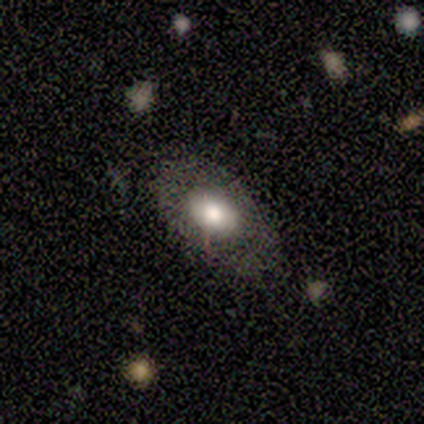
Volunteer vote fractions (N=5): Volunteers were most divided on "smooth or featured": smooth: 80%, featured or disk: 20%, star or artifact: 0%. More confident: how rounded — in between (100%); merging — none (100%).